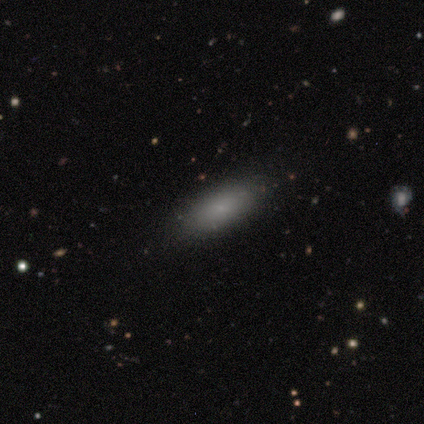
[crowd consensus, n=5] smooth 100%, featured or disk 0%, star or artifact 0%. Down the decision tree: how rounded — in between (60%); merging — none (100%).